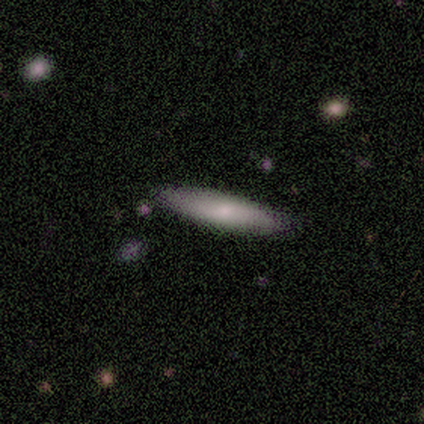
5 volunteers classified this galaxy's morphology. A smooth galaxy with no disk features (60%) that is cigar-shaped (100%).

Vote fractions:
- Smooth or featured? smooth: 60% / featured or disk: 40% / star or artifact: 0%
- How rounded? cigar-shaped: 100% / round: 0% / in between: 0%
- Merging? none: 80% / major disturbance: 20% / minor disturbance: 0% / merger: 0%